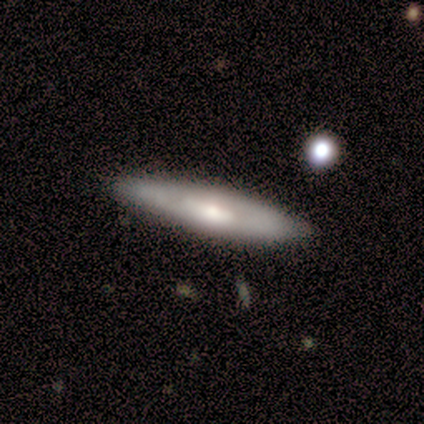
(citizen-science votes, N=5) Smooth or featured: smooth — 80% (featured or disk — 20%)
How rounded: in between — 50% (tied with cigar-shaped — 50%)
Merging: none — 100%